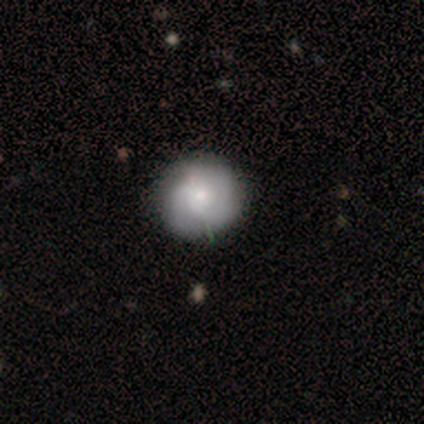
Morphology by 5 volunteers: smooth-or-featured: smooth: 60% | featured or disk: 40% | star or artifact: 0%
  how-rounded: round: 100% | in between: 0% | cigar-shaped: 0%
  merging: none: 60% | major disturbance: 40% | minor disturbance: 0% | merger: 0%